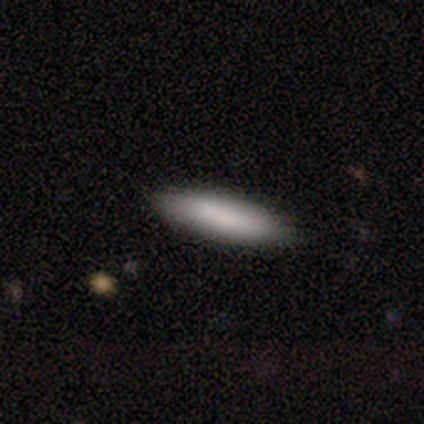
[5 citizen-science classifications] smooth_or_featured: smooth (p=0.80) [alt: featured or disk p=0.20]
how_rounded: cigar-shaped (p=0.75) [alt: in between p=0.25]
merging: none (p=1.00)